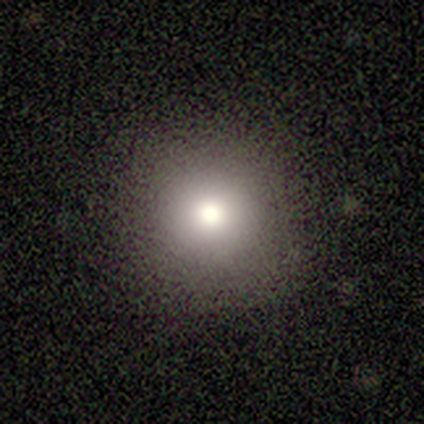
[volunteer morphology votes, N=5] A smooth galaxy with no disk features (40%, tied with star or artifact) that is round (100%).

Vote fractions:
- Smooth or featured? smooth: 40% (tied) / star or artifact: 40% (tied) / featured or disk: 20%
- How rounded? round: 100% / in between: 0% / cigar-shaped: 0%
- Merging? none: 100% / minor disturbance: 0% / major disturbance: 0% / merger: 0%